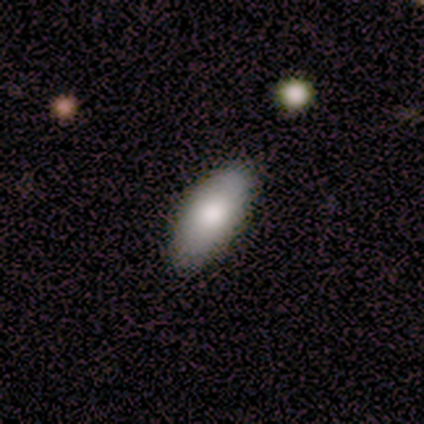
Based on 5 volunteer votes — smooth 80%, star or artifact 20%, featured or disk 0%. Down the decision tree: how rounded — in between (100%); merging — none (75%).